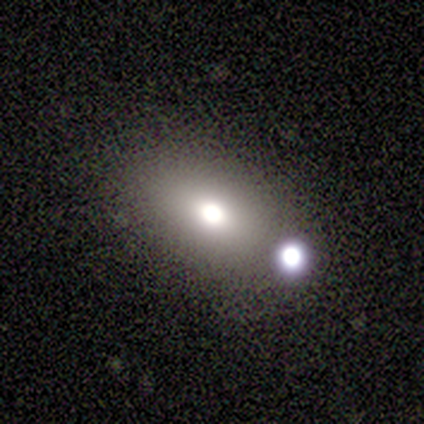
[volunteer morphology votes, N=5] A smooth galaxy with no disk features (60%) that is in between round and cigar-shaped (67%). Merging: none (50%).